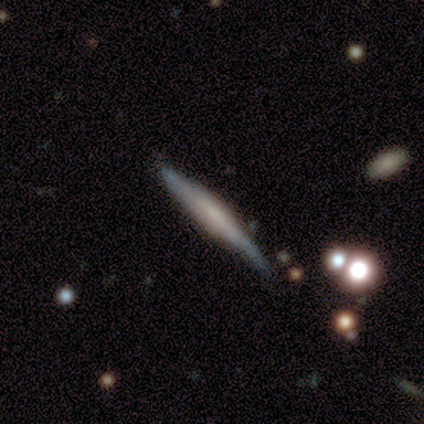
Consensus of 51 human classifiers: This is likely a featured or disk galaxy (73%). It is clearly viewed edge-on (95%). Edge-on bulge: possibly boxy (49%). Merging: likely none (67%).